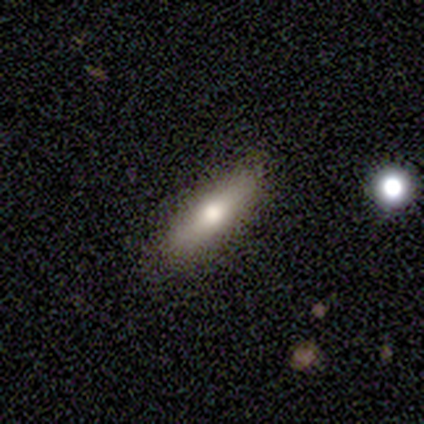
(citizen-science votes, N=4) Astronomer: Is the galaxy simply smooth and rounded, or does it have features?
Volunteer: smooth — 75%.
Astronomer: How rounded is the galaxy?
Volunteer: round — 33%, tied with in between and cigar-shaped at 33%.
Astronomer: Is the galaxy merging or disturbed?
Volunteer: none — 50%.